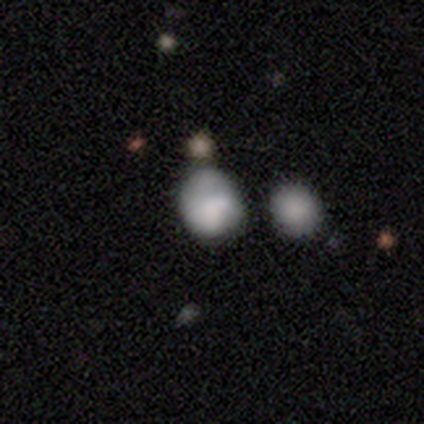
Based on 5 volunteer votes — Morphology: type=smooth (80%); roundness=round (50%, tied with in between); merging=minor disturbance (80%).